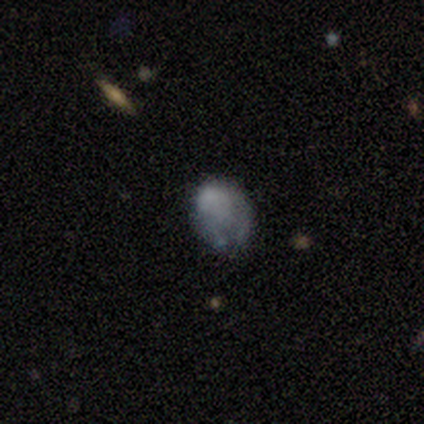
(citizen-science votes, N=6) Volunteers were most divided on "merging": minor disturbance: 50%, major disturbance: 33%, none: 17%, merger: 0%. More confident: smooth or featured — smooth (83%); how rounded — in between (60%).